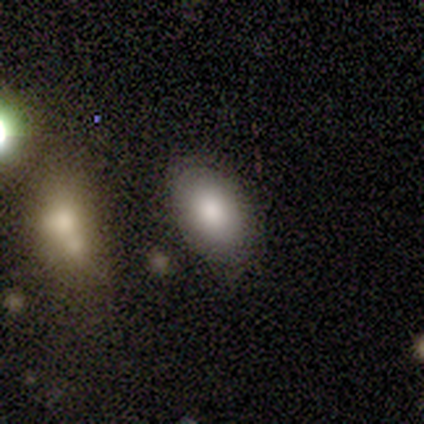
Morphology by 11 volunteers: smooth_or_featured: smooth (p=0.91) [alt: star or artifact p=0.09]
how_rounded: in between (p=1.00)
merging: none (p=0.80) [alt: major disturbance p=0.20]